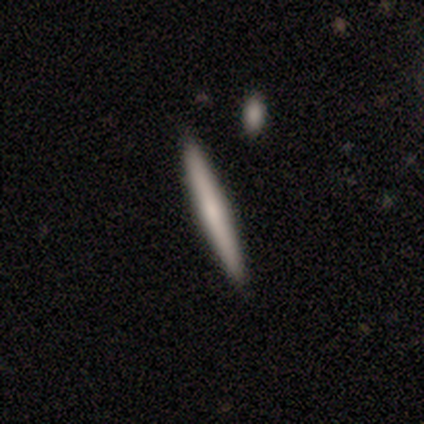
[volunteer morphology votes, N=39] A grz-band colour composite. It shows a smooth galaxy with no disk features (64%) that is cigar-shaped (100%). Merging: none (83%).